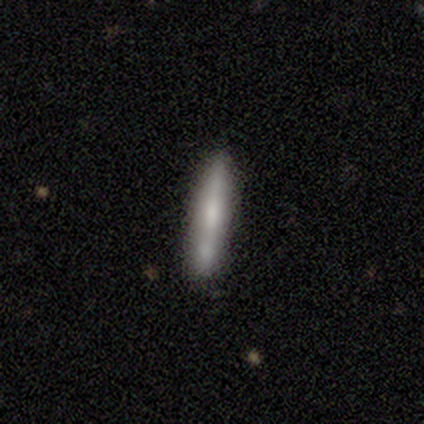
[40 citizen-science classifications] smooth-or-featured: smooth: 65% | featured or disk: 35% | star or artifact: 0%
  how-rounded: cigar-shaped: 85% | in between: 15% | round: 0%
  merging: none: 78% | minor disturbance: 12% | major disturbance: 5% | merger: 5%